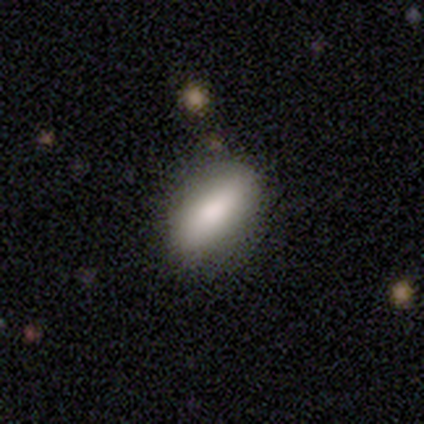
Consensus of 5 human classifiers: smooth_or_featured: smooth (p=1.00)
how_rounded: in between (p=1.00)
merging: none (p=0.80) [alt: minor disturbance p=0.20]